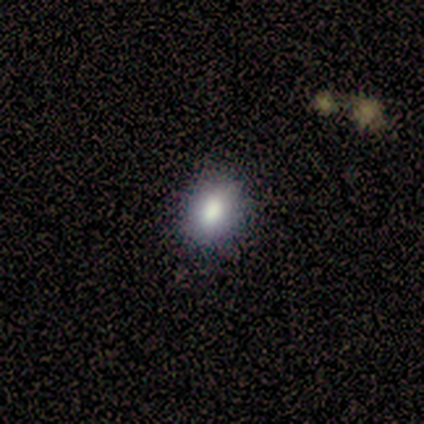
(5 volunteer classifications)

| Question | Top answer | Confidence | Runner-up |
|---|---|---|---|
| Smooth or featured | smooth | 100% | — |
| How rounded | in between | 80% | round (20%) |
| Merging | none | 60% | minor disturbance (20%) |